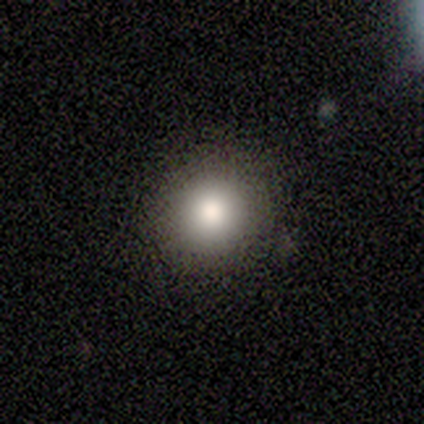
This is clearly a smooth galaxy (80%). How rounded: likely round (75%). Merging: clearly none (100%).